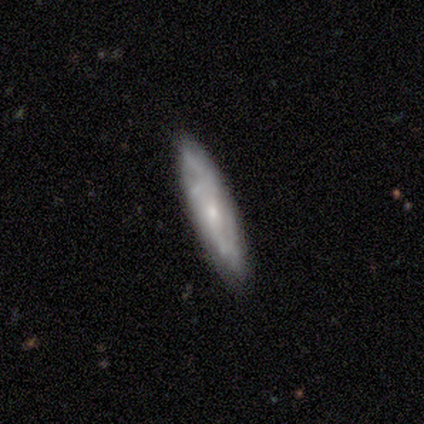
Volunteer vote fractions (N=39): Morphology: type=featured or disk (67%); edge-on=no (65%); bar=no (82%); spiral arms=yes (82%); winding=tight (36%, tied with medium); arm count=can't tell (57%); bulge=small (71%); merging=none (89%).